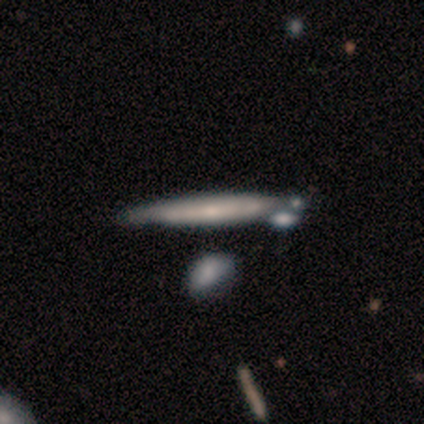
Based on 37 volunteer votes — Overall: featured or disk (51%; smooth 49%). Edge-on disk: yes (84%). Edge-on bulge: none (50%; rounded 44%). Merging: none (51%; merger 27%).